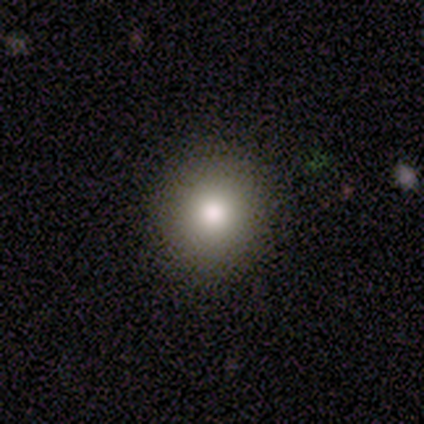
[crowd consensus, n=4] Q: Smooth or featured?
A: smooth (50%); runner-up: featured or disk (25%)
Q: How rounded?
A: round (100%)
Q: Merging?
A: none (100%)